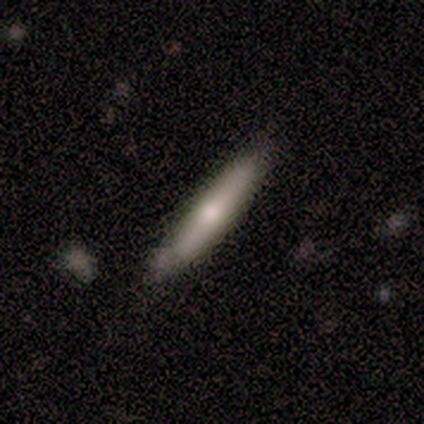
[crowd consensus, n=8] Volunteers were most divided on "smooth or featured": featured or disk: 62%, smooth: 38%, star or artifact: 0%. More confident: merging — none (88%); edge-on disk — yes (80%); edge-on bulge — rounded (75%).